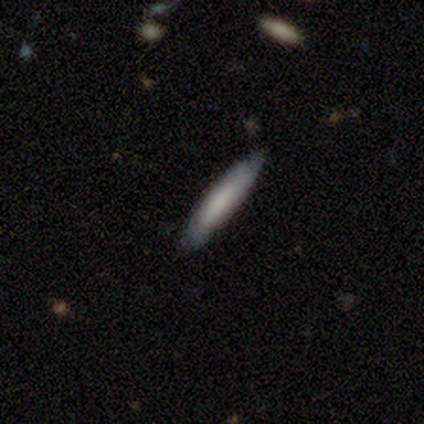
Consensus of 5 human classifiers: Smooth or featured?
  - smooth: 60% *
  - featured or disk: 20%
  - star or artifact: 20%
How rounded?
  - cigar-shaped: 100% *
  - round: 0%
  - in between: 0%
Merging?
  - none: 100% *
  - minor disturbance: 0%
  - major disturbance: 0%
  - merger: 0%